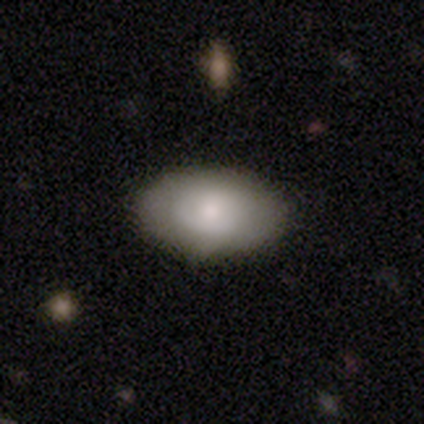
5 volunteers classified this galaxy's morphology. A smooth galaxy with no disk features (60%) that is in between round and cigar-shaped (100%). Merging: none (80%).